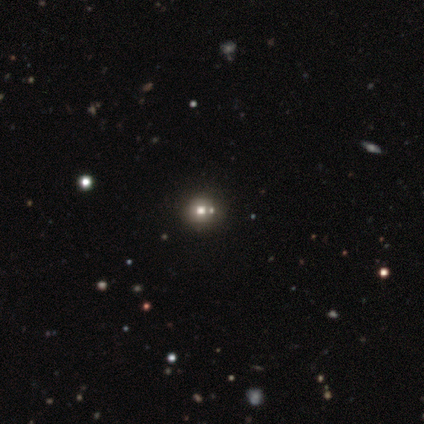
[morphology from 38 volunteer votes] Smooth or featured: smooth — 55% (star or artifact — 42%)
How rounded: round — 90% (in between — 5%)
Merging: none — 77% (merger — 18%)